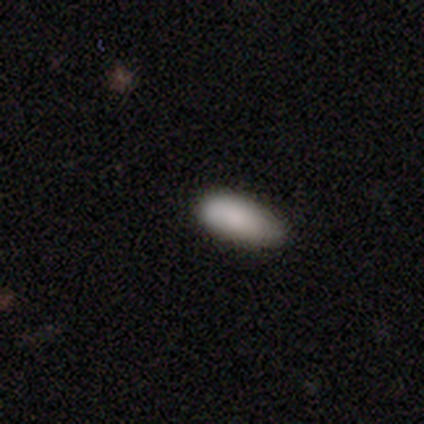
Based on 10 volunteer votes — Smooth or featured?
  - smooth: 80% *
  - featured or disk: 10%
  - star or artifact: 10%
How rounded?
  - in between: 88% *
  - cigar-shaped: 12%
  - round: 0%
Merging?
  - none: 89% *
  - minor disturbance: 11%
  - major disturbance: 0%
  - merger: 0%